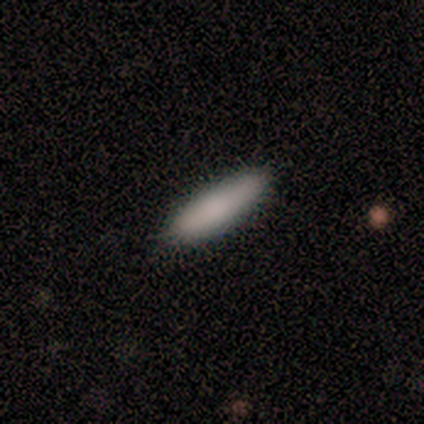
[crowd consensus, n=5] Overall: smooth (100%). How rounded: cigar-shaped (80%). Merging: none (100%).